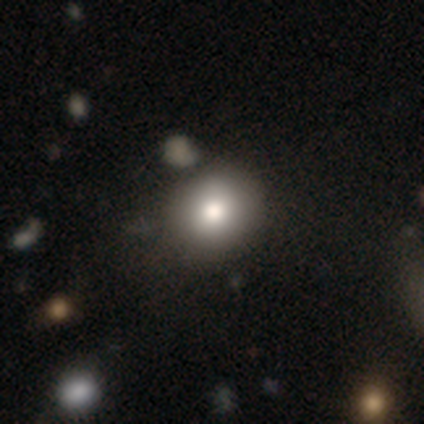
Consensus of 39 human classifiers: smooth-or-featured: smooth: 79% | featured or disk: 15% | star or artifact: 5%
  how-rounded: round: 90% | in between: 10% | cigar-shaped: 0%
  merging: none: 49% | minor disturbance: 11% | merger: 3% | major disturbance: 0%